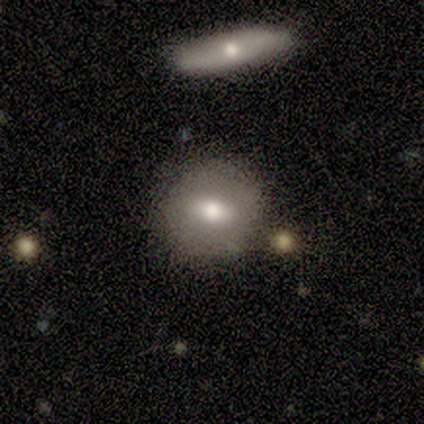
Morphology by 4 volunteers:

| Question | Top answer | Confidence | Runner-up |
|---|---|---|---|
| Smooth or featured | smooth | 100% | — |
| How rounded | round | 100% | — |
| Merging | none | 75% | merger (25%) |